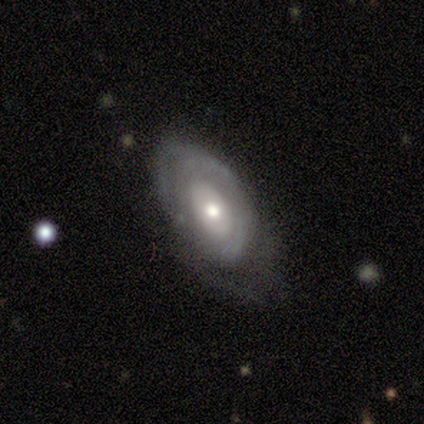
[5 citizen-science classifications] Smooth or featured?
  - featured or disk: 80% *
  - smooth: 20%
  - star or artifact: 0%
Edge-on disk?
  - no: 100% *
  - yes: 0%
Bar?
  - no: 100% *
  - strong: 0%
  - weak: 0%
Spiral arms?
  - no: 75% *
  - yes: 25%
Bulge size?
  - small: 50% *
  - large: 25%
  - moderate: 25%
  - dominant: 0%
  - none: 0%
Merging?
  - minor disturbance: 80% *
  - none: 20%
  - major disturbance: 0%
  - merger: 0%